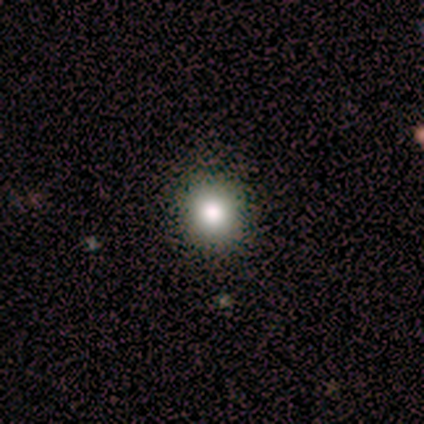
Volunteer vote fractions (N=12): Smooth or featured: smooth — 67% (star or artifact — 25%)
How rounded: round — 100%
Merging: none — 100%